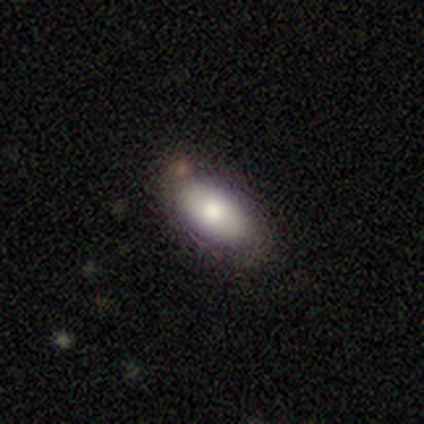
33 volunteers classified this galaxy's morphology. This appears to be a smooth galaxy with no disk features (58%) that is in between round and cigar-shaped (84%). Merging: none (63%).